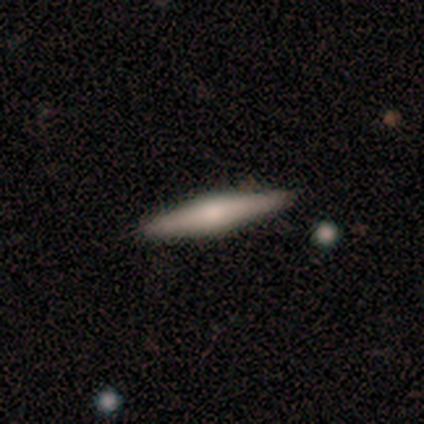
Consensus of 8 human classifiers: Q: Smooth or featured?
A: featured or disk (62%); runner-up: smooth (25%)
Q: Edge-on disk?
A: yes (100%)
Q: Edge-on bulge?
A: rounded (80%); runner-up: boxy (20%)
Q: Merging?
A: none (100%)